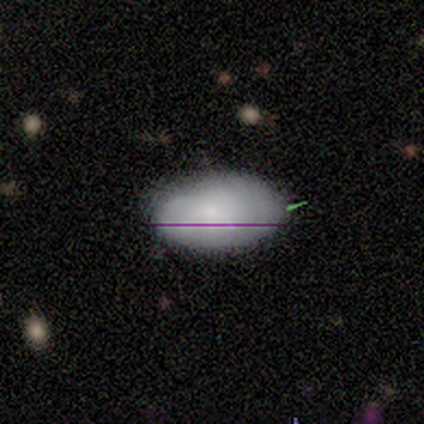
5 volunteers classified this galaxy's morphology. A smooth galaxy with no disk features (80%) that is in between round and cigar-shaped (100%). Merging: none (100%).